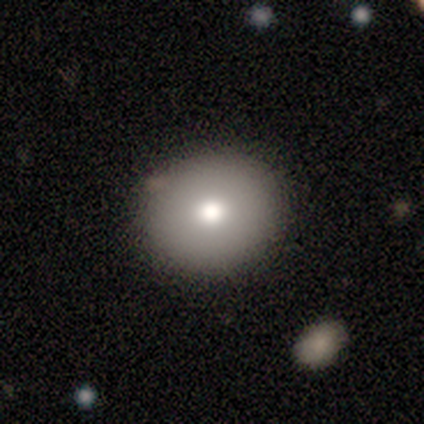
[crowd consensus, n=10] Smooth or featured? 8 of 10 (80%) said smooth. How rounded? 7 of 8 (88%) said round. Merging? 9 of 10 (90%) said none.